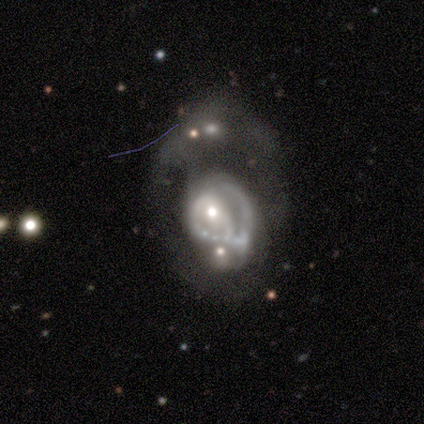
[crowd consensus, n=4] This is possibly a smooth galaxy (50%, tied with featured or disk). How rounded: clearly in between (100%). Merging: possibly major disturbance (50%).